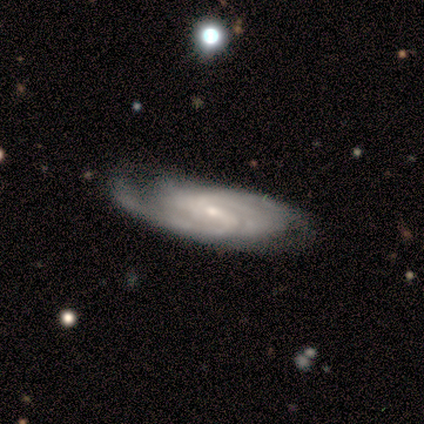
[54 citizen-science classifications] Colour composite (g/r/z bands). It shows a featured or disk galaxy (83%) with a weak bar (51%), tight (53%) spiral arms (97%) and a small central bulge (62%). Merging: none (54%).